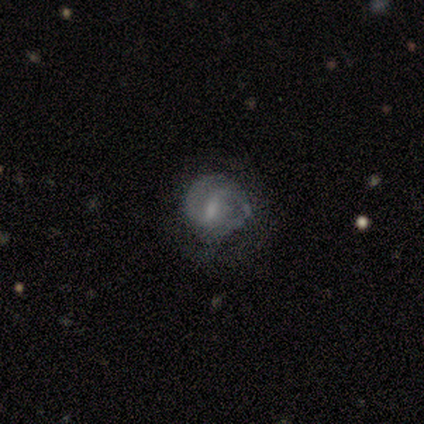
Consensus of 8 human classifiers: smooth_or_featured: featured or disk (p=0.88) [alt: smooth p=0.12]
disk_edge_on: no (p=0.86) [alt: yes p=0.14]
bar: weak (p=1.00)
has_spiral_arms: yes (p=0.83) [alt: no p=0.17]
spiral_winding: tight (p=0.80) [alt: medium p=0.20]
spiral_arm_count: 2 (p=0.80) [alt: can't tell p=0.20]
bulge_size: none (p=0.50) [alt: moderate p=0.33]
merging: minor disturbance (p=0.50) [alt: none p=0.25]